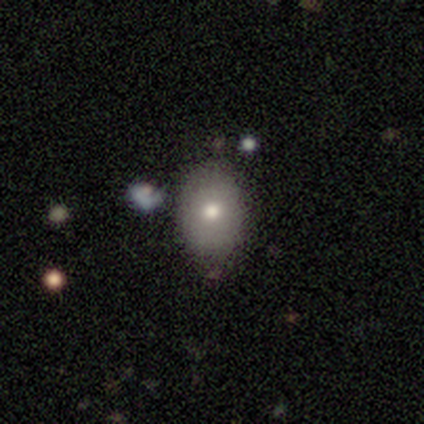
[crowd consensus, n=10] Smooth or featured? smooth (80%)
How rounded? round (62%)
Merging? none (100%)